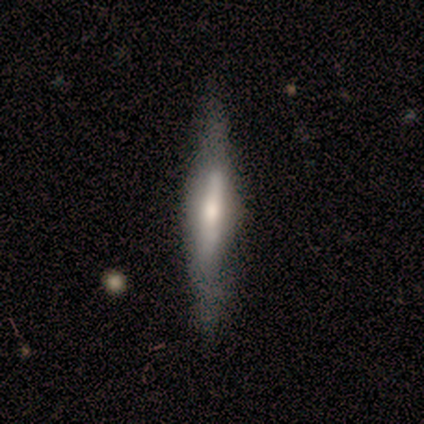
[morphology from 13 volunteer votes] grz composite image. It shows a featured or disk galaxy (69%) viewed edge-on (89%) with a rounded central bulge (50%). Merging: none (80%).